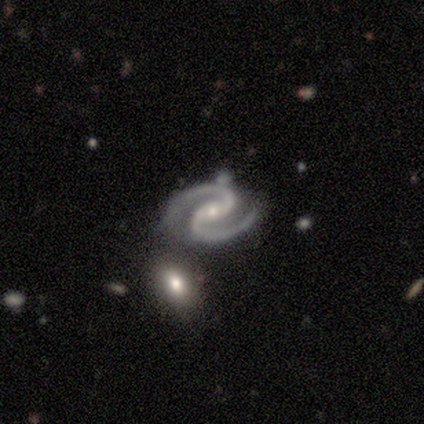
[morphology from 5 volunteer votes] smooth_or_featured: featured or disk (p=1.00)
disk_edge_on: no (p=1.00)
bar: no (p=0.80) [alt: weak p=0.20]
has_spiral_arms: yes (p=1.00)
spiral_winding: medium (p=0.80) [alt: tight p=0.20]
spiral_arm_count: 2 (p=1.00)
bulge_size: small (p=1.00)
merging: none (p=1.00)